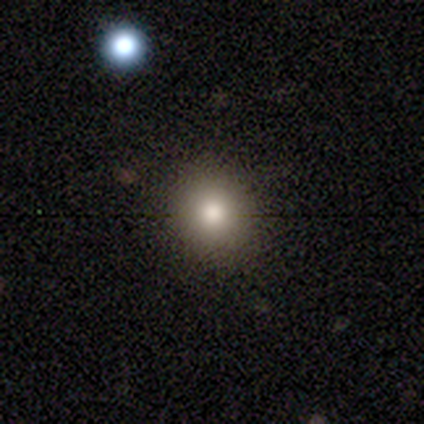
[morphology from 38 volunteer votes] This is likely a smooth galaxy (79%). How rounded: clearly round (80%). Merging: clearly none (91%).